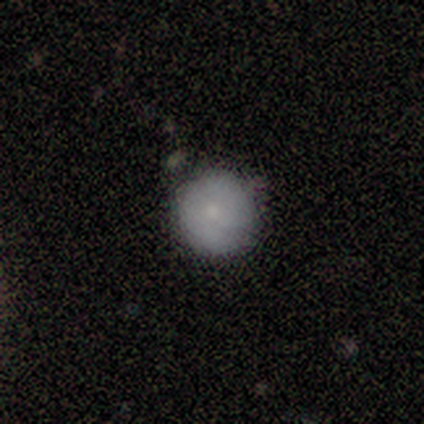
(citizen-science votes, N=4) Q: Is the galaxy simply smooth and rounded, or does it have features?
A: featured or disk — 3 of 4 (75%).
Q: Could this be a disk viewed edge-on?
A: no — 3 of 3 (100%).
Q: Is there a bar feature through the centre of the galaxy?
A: no — 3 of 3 (100%).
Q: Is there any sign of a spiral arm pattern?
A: no — 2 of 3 (67%).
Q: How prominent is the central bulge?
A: moderate — 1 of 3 (33%, tied with small and none).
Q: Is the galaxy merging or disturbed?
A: none — 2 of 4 (50%, tied with minor disturbance).